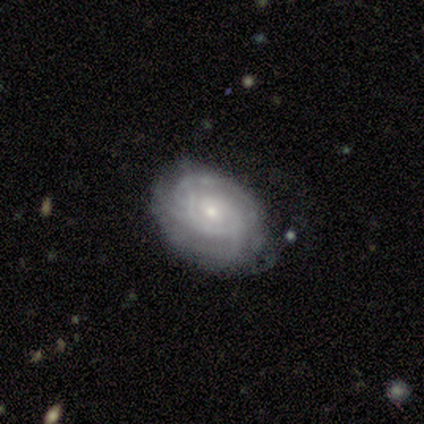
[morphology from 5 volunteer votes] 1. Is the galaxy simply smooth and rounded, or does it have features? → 60% featured or disk, 40% smooth, 0% star or artifact.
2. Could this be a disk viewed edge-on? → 100% no, 0% yes.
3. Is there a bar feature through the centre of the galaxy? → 67% no, 33% weak, 0% strong.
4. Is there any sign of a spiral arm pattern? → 100% yes, 0% no.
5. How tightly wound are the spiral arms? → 67% tight, 33% medium, 0% loose.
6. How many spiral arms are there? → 67% 2, 33% can't tell, 0% 1, 0% 3, 0% 4, 0% more than 4.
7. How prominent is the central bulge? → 100% small, 0% dominant, 0% large, 0% moderate, 0% none.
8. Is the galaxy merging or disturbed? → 80% none, 20% minor disturbance, 0% major disturbance, 0% merger.